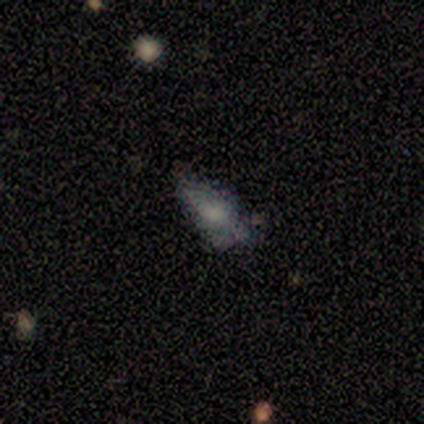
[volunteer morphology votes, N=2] smooth-or-featured: featured or disk: 50% (tied) | star or artifact: 50% (tied) | smooth: 0%
  disk-edge-on: no: 100% | yes: 0%
    bar: weak: 100% | strong: 0% | no: 0%
    has-spiral-arms: no: 100% | yes: 0%
    bulge-size: small: 100% | dominant: 0% | large: 0% | moderate: 0% | none: 0%
  merging: minor disturbance: 100% | none: 0% | major disturbance: 0% | merger: 0%